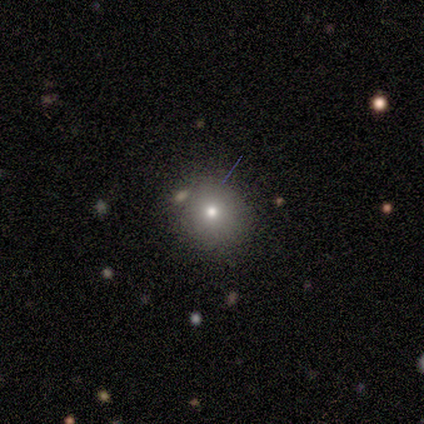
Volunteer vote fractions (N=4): Volunteers were most divided on "how rounded": round: 75%, in between: 25%, cigar-shaped: 0%. More confident: smooth or featured — smooth (100%); merging — none (100%).